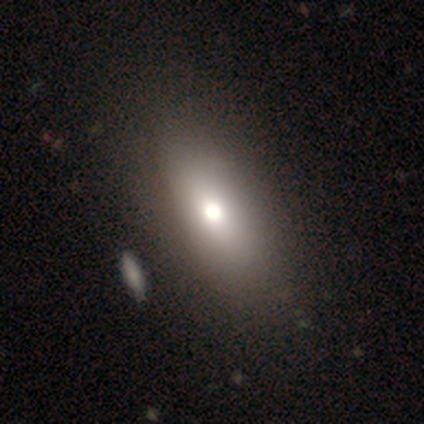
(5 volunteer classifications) Q: Smooth or featured?
A: smooth (60%); runner-up: featured or disk (20%)
Q: How rounded?
A: in between (100%)
Q: Merging?
A: none (50%); runner-up: minor disturbance (25%)